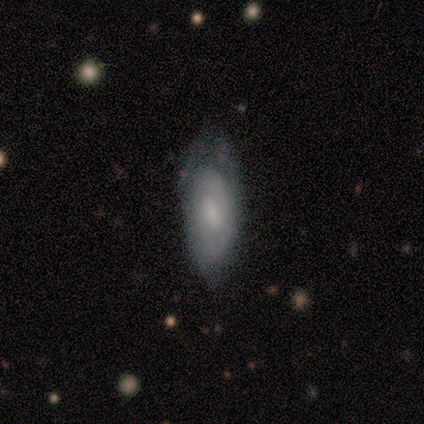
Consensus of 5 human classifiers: Morphology: type=featured or disk (80%); edge-on=no (100%); bar=weak (75%); spiral arms=yes (50%, tied with no); winding=tight (100%); arm count=2 (100%); bulge=small (50%); merging=none (60%).